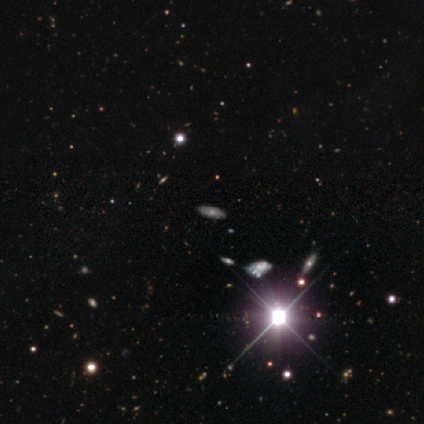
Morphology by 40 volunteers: A star or artifact, not a galaxy (55%).

Vote fractions:
- Smooth or featured? star or artifact: 55% / featured or disk: 32% / smooth: 12%